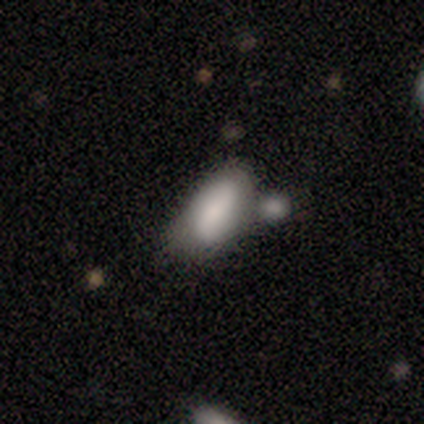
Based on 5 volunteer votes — Q: Smooth or featured?
A: smooth (80%); runner-up: star or artifact (20%)
Q: How rounded?
A: in between (100%)
Q: Merging?
A: none (50%); tied with: merger (50%)